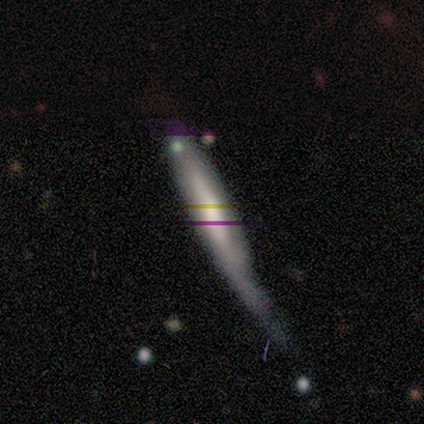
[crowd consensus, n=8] smooth-or-featured: smooth: 38% (tied) | featured or disk: 38% (tied) | star or artifact: 25%
  how-rounded: cigar-shaped: 100% | round: 0% | in between: 0%
  merging: major disturbance: 50% | minor disturbance: 33% | none: 17% | merger: 0%